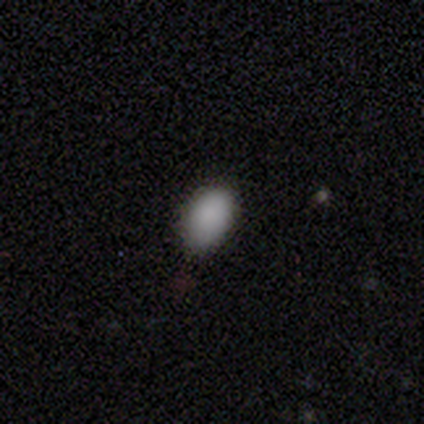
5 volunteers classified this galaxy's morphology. This is clearly a smooth galaxy (100%). How rounded: clearly in between (100%). Merging: clearly none (80%).